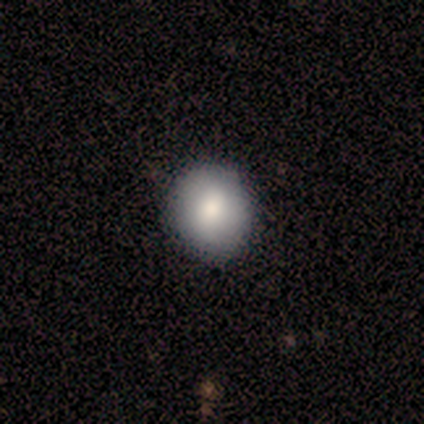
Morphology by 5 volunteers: Smooth or featured? 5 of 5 (100%) said smooth. How rounded? 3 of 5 (60%) said round. Merging? 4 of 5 (80%) said none.